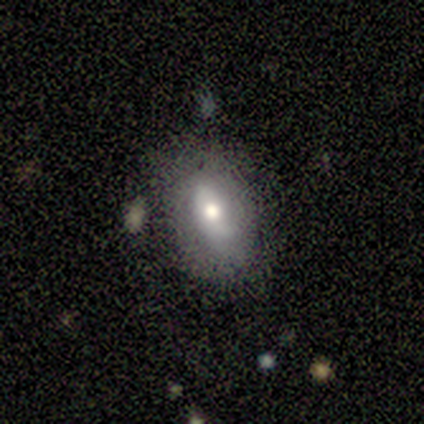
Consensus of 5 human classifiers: A smooth galaxy with no disk features (60%) that is in between round and cigar-shaped (100%). Merging: none (60%).